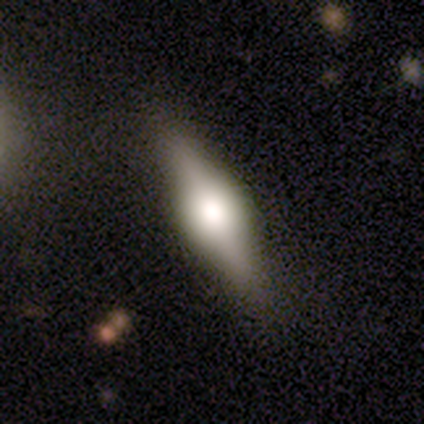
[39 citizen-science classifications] Smooth or featured: featured or disk — 77% (smooth — 18%)
Edge-on disk: yes — 93% (no — 7%)
Edge-on bulge: rounded — 75% (boxy — 25%)
Merging: none — 86% (minor disturbance — 5%)